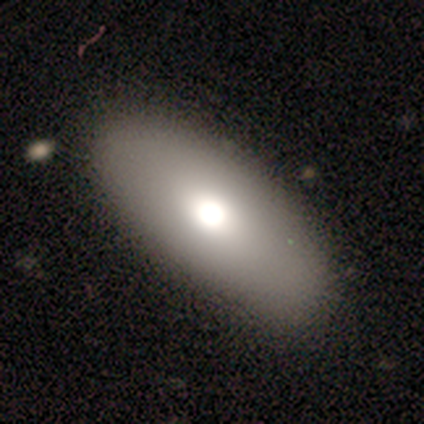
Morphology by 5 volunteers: This appears to be a smooth galaxy with no disk features (80%) that is in between round and cigar-shaped (75%). Merging: none (80%).